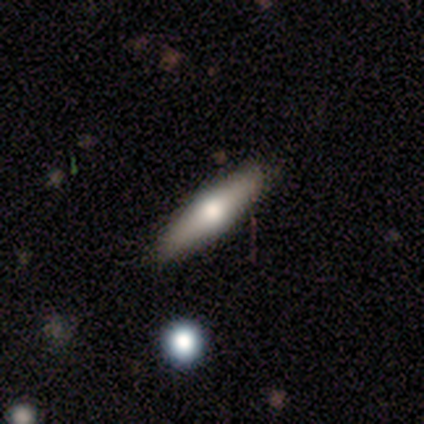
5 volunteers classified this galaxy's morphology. Overall: smooth (100%). How rounded: cigar-shaped (80%). Merging: none (80%).